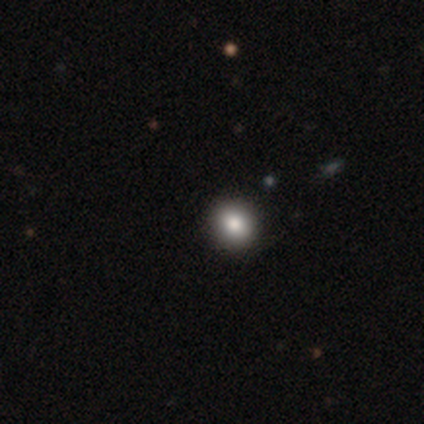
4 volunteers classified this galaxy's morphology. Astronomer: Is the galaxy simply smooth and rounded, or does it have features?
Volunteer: smooth — 50%.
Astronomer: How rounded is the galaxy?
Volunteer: round — 50%, tied with in between at 50%.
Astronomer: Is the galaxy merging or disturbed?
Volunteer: none — 100%.